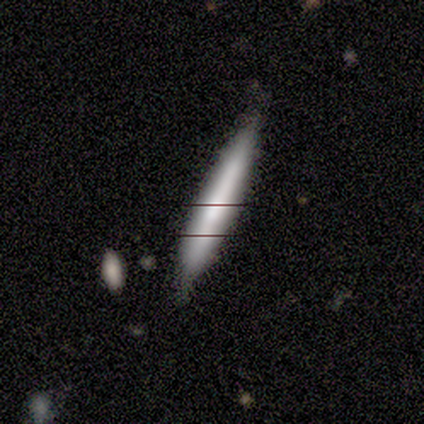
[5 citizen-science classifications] A smooth galaxy with no disk features (60%) that is cigar-shaped (100%).

Vote fractions:
- Smooth or featured? smooth: 60% / featured or disk: 40% / star or artifact: 0%
- How rounded? cigar-shaped: 100% / round: 0% / in between: 0%
- Merging? none: 80% / minor disturbance: 20% / major disturbance: 0% / merger: 0%